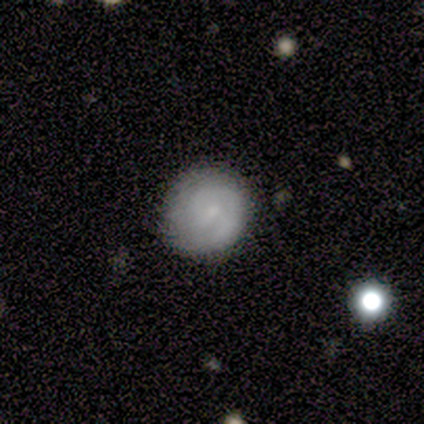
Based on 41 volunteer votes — Smooth or featured: featured or disk — 49% (smooth — 39%)
Edge-on disk: no — 100%
Bar: weak — 50% (tied with no — 50%)
Spiral arms: yes — 80% (no — 20%)
Spiral winding: tight — 56% (medium — 31%)
Spiral arm count: 1 — 50% (2 — 31%)
Bulge size: small — 75% (moderate — 20%)
Merging: none — 75% (major disturbance — 14%)